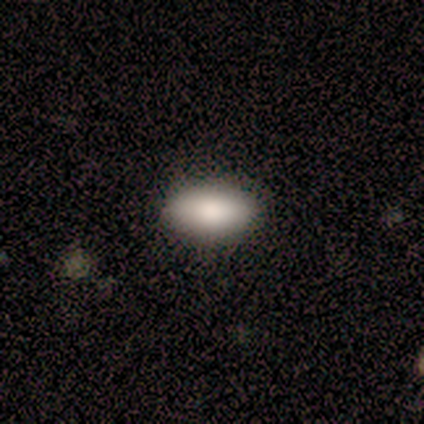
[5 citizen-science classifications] smooth-or-featured: smooth: 100% | featured or disk: 0% | star or artifact: 0%
  how-rounded: in between: 60% | round: 20% | cigar-shaped: 20%
  merging: none: 100% | minor disturbance: 0% | major disturbance: 0% | merger: 0%